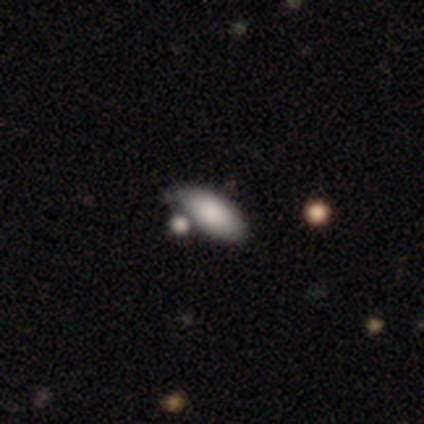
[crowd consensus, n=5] A smooth galaxy with no disk features (60%) that is in between round and cigar-shaped (100%). Merging: none (50%).